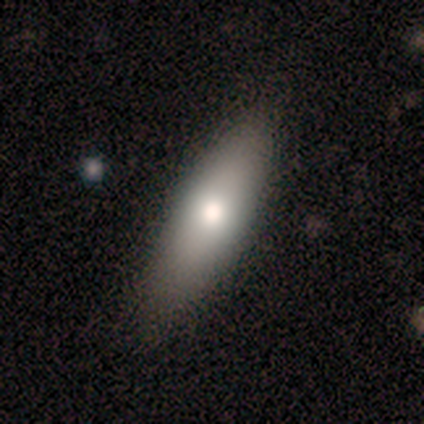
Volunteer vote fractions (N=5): Smooth or featured: smooth — 80% (star or artifact — 20%)
How rounded: cigar-shaped — 75% (in between — 25%)
Merging: none — 75% (major disturbance — 25%)